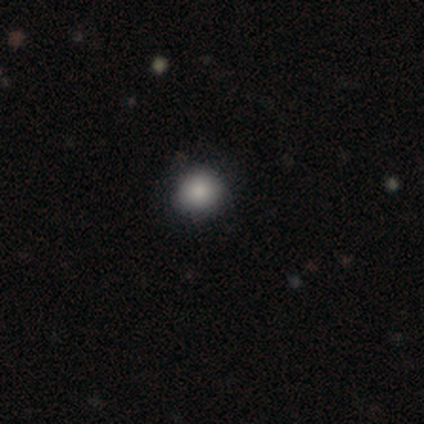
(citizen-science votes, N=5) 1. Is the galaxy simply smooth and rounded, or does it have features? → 60% smooth, 40% star or artifact, 0% featured or disk.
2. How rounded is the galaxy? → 100% round, 0% in between, 0% cigar-shaped.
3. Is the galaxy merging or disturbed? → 100% none, 0% minor disturbance, 0% major disturbance, 0% merger.